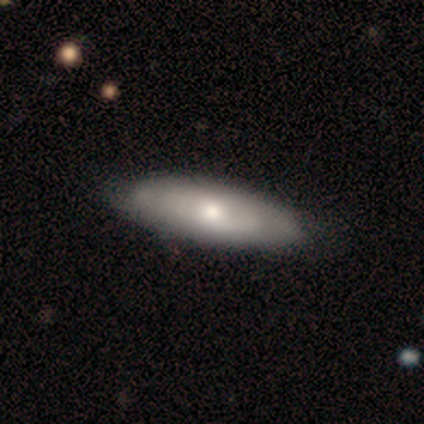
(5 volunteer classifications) smooth-or-featured: smooth: 60% | featured or disk: 40% | star or artifact: 0%
  how-rounded: in between: 100% | round: 0% | cigar-shaped: 0%
  merging: none: 80% | major disturbance: 20% | minor disturbance: 0% | merger: 0%